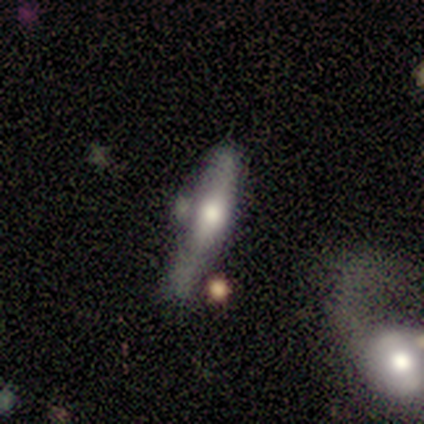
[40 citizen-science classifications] Smooth or featured? featured or disk (65%)
Edge-on disk? yes (65%)
Edge-on bulge? rounded (76%)
Merging? minor disturbance (39%)